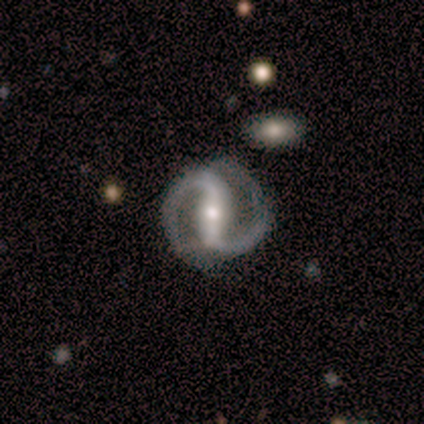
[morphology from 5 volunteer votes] This appears to be a featured or disk galaxy (100%) with a strong bar (60%), 2 (100%) medium (75%) spiral arms (80%) and a moderate central bulge (60%). Merging: none (100%).